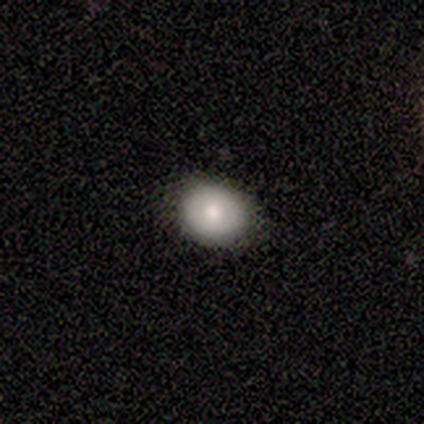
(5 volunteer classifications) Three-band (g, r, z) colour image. It shows a smooth galaxy with no disk features (60%) that is round (67%). Merging: none (100%).